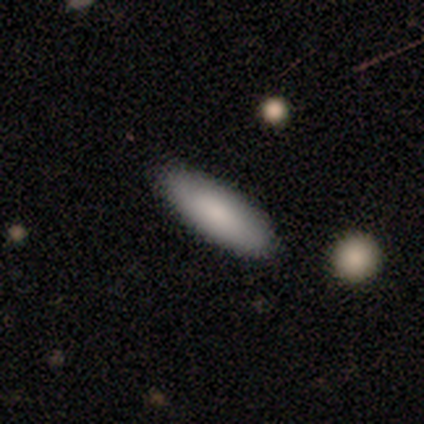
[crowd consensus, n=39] Smooth or featured? 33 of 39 (85%) said smooth. How rounded? 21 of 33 (64%) said in between. Merging? 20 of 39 (51%) said none.